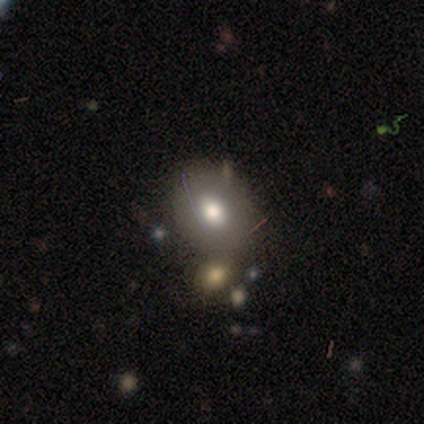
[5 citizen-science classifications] A smooth galaxy with no disk features (80%) that is in between round and cigar-shaped (75%).

Vote fractions:
- Smooth or featured? smooth: 80% / star or artifact: 20% / featured or disk: 0%
- How rounded? in between: 75% / round: 25% / cigar-shaped: 0%
- Merging? major disturbance: 50% / minor disturbance: 25% / merger: 25% / none: 0%